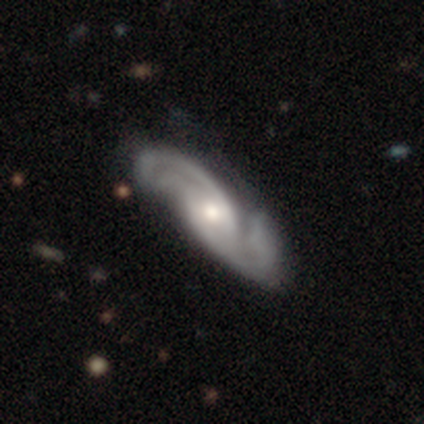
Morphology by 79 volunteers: Smooth or featured? 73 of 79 (92%) said featured or disk. Edge-on disk? 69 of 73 (95%) said no. Bar? 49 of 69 (71%) said no. Spiral arms? 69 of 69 (100%) said yes. Spiral winding? 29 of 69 (42%) said medium. Spiral arm count? 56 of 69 (81%) said 2. Bulge size? 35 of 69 (51%) said moderate. Merging? 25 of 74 (34%) said none.